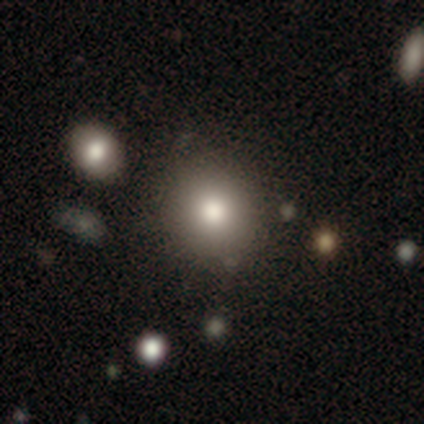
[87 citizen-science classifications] Overall: smooth (70%). How rounded: round (90%). Merging: none (85%).